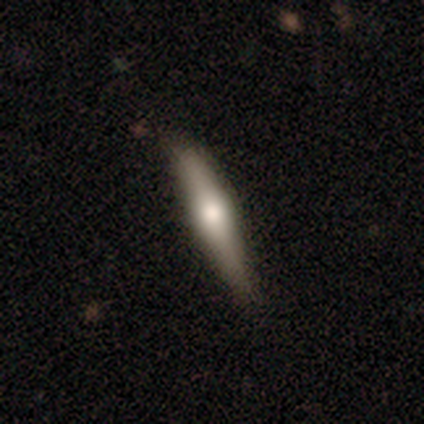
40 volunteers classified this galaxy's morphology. Volunteers were most divided on "smooth or featured": smooth: 52%, featured or disk: 40%, star or artifact: 8%. More confident: how rounded — cigar-shaped (100%); merging — none (92%).